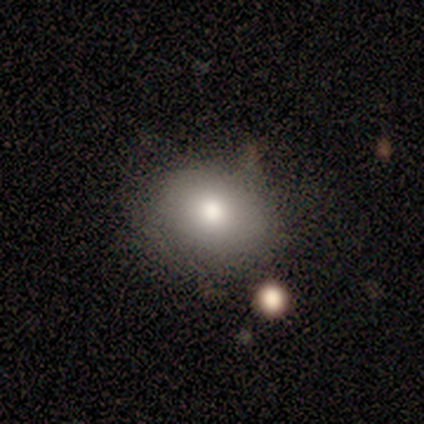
This appears to be a smooth galaxy with no disk features (40%, tied with star or artifact) that is round (50%, tied with in between). Merging: none (100%).